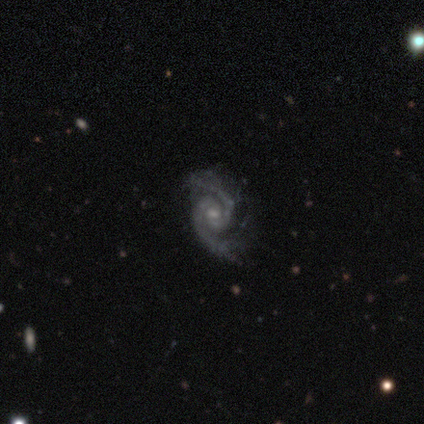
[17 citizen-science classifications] Smooth or featured: featured or disk — 88% (star or artifact — 12%)
Edge-on disk: no — 100%
Bar: weak — 60% (no — 40%)
Spiral arms: yes — 100%
Spiral winding: tight — 40% (tied with medium — 40%)
Spiral arm count: 2 — 93% (4 — 7%)
Bulge size: small — 53% (moderate — 47%)
Merging: none — 47% (minor disturbance — 33%)